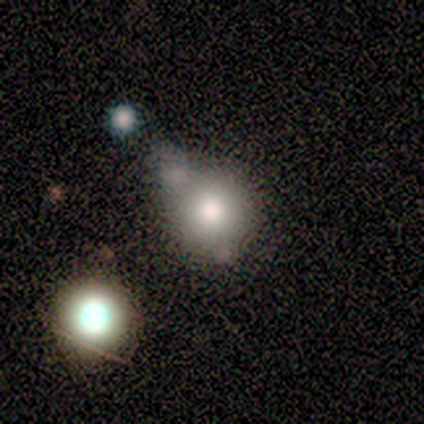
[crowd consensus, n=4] Smooth or featured? 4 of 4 (100%) said smooth. How rounded? 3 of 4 (75%) said round. Merging? 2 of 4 (50%, tied with minor disturbance) said none.